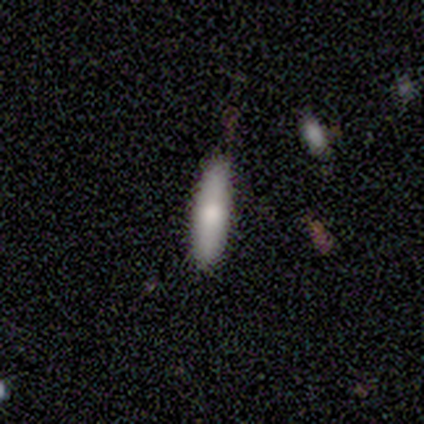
smooth-or-featured: smooth: 80% | featured or disk: 20% | star or artifact: 0%
  how-rounded: cigar-shaped: 75% | in between: 25% | round: 0%
  merging: none: 80% | minor disturbance: 20% | major disturbance: 0% | merger: 0%